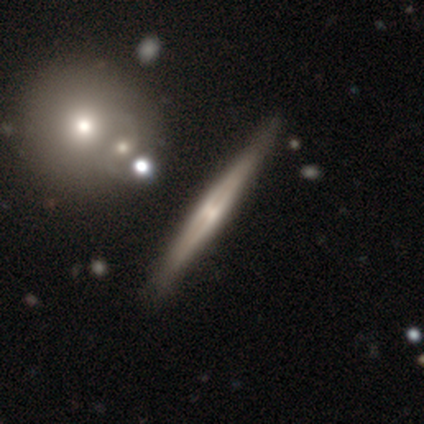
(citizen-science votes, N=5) Overall: featured or disk (100%). Edge-on disk: yes (100%). Edge-on bulge: none (80%). Merging: none (100%).